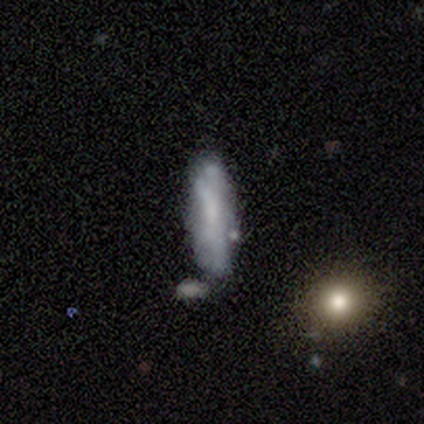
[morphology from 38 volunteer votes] Smooth or featured: smooth — 45% (featured or disk — 39%)
How rounded: cigar-shaped — 71% (in between — 24%)
Merging: none — 50% (minor disturbance — 28%)